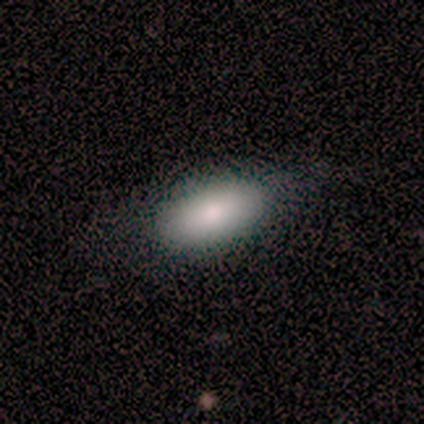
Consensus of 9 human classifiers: A smooth galaxy with no disk features (78%) that is in between round and cigar-shaped (100%).

Vote fractions:
- Smooth or featured? smooth: 78% / featured or disk: 22% / star or artifact: 0%
- How rounded? in between: 100% / round: 0% / cigar-shaped: 0%
- Merging? none: 89% / minor disturbance: 11% / major disturbance: 0% / merger: 0%